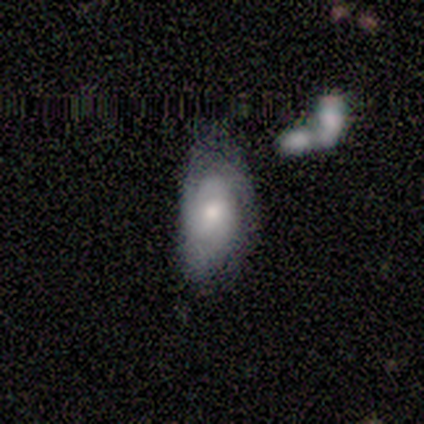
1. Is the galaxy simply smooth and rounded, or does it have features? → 60% featured or disk, 40% smooth, 0% star or artifact.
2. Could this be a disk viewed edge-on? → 100% no, 0% yes.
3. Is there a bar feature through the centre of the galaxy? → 100% no, 0% strong, 0% weak.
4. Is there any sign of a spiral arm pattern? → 67% yes, 33% no.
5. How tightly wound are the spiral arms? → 100% tight, 0% medium, 0% loose.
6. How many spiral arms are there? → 50% 3 (tied), 50% can't tell (tied), 0% 1, 0% 2, 0% 4, 0% more than 4.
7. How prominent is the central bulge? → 67% moderate, 33% large, 0% dominant, 0% small, 0% none.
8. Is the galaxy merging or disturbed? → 40% minor disturbance (tied), 40% major disturbance (tied), 20% none, 0% merger.